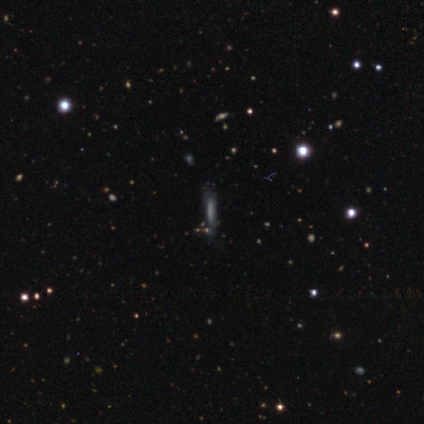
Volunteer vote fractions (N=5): This appears to be a smooth galaxy with no disk features (60%) that is cigar-shaped (100%). Merging: none (67%).